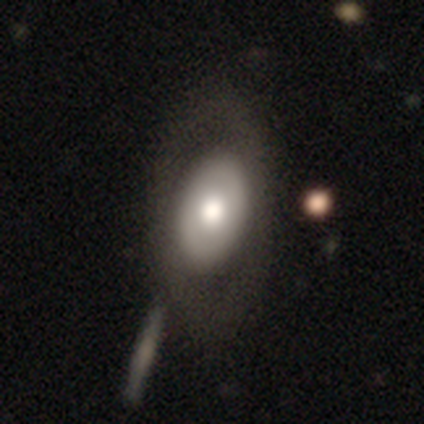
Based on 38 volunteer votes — Overall: smooth (50%; featured or disk 47%). How rounded: in between (89%). Merging: none (38%; merger 16%).